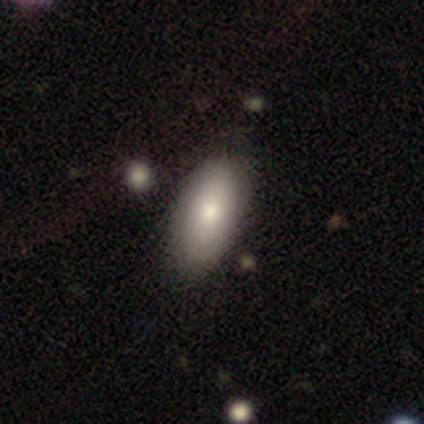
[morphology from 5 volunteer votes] Smooth or featured: smooth — 60% (featured or disk — 40%)
How rounded: in between — 100%
Merging: none — 80% (minor disturbance — 20%)